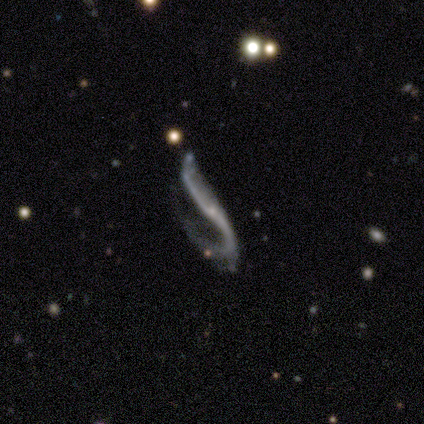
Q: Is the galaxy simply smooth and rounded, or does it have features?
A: featured or disk — 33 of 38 (87%).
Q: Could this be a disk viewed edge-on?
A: no — 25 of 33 (76%).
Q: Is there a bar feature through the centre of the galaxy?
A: no — 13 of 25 (52%).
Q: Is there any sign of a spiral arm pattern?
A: yes — 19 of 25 (76%).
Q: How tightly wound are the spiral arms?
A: loose — 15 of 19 (79%).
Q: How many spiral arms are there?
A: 2 — 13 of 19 (68%).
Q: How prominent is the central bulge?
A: small — 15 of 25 (60%).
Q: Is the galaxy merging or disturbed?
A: major disturbance — 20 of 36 (56%).